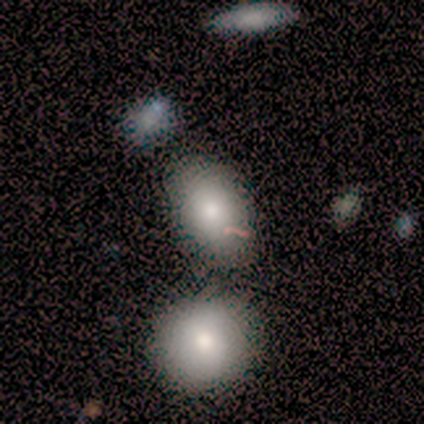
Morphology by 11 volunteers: Smooth or featured?
  - smooth: 100% *
  - featured or disk: 0%
  - star or artifact: 0%
How rounded?
  - in between: 91% *
  - round: 9%
  - cigar-shaped: 0%
Merging?
  - none: 73% *
  - minor disturbance: 18%
  - merger: 9%
  - major disturbance: 0%